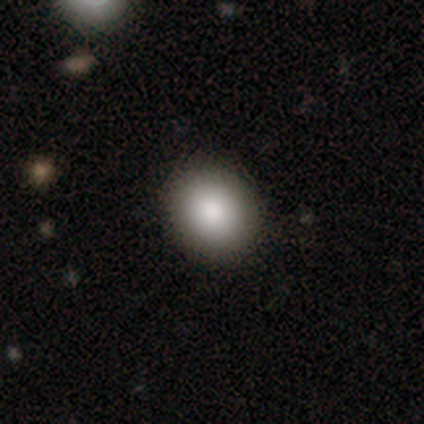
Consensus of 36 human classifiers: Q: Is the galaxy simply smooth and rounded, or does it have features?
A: smooth — 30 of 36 (83%).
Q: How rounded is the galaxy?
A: round — 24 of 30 (80%).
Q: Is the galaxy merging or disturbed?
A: none — 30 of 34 (88%).